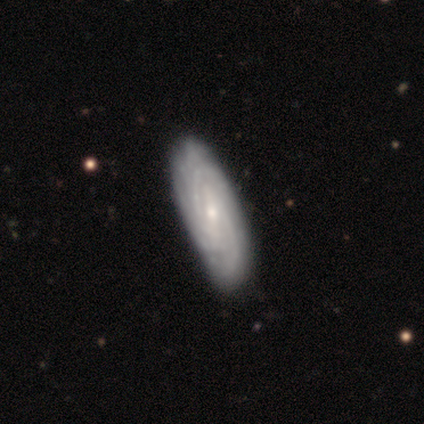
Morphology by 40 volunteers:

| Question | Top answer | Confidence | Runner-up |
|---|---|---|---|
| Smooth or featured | featured or disk | 85% | smooth (12%) |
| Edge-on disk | no | 91% | yes (9%) |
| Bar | weak | 35% | strong (32%) |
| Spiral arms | yes | 100% | — |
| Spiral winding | tight | 74% | medium (16%) |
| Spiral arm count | can't tell | 55% | 2 (32%) |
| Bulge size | small | 58% | moderate (35%) |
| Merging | none | 49% | minor disturbance (10%) |